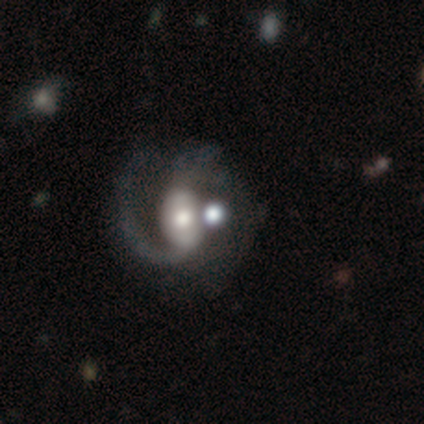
This is clearly a featured or disk galaxy (80%). It is clearly not viewed edge-on (96%). Bar: marginally weak (44%). Spiral arm pattern: clearly yes (93%). Spiral arm count: possibly 2 (57%). Spiral winding: marginally medium (43%, tied with loose). Central bulge: likely moderate (65%). Merging: marginally major disturbance (32%).